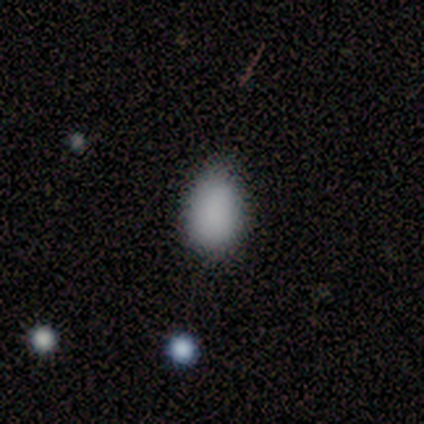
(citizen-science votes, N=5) This is clearly a smooth galaxy (100%). How rounded: clearly in between (100%). Merging: likely minor disturbance (60%).